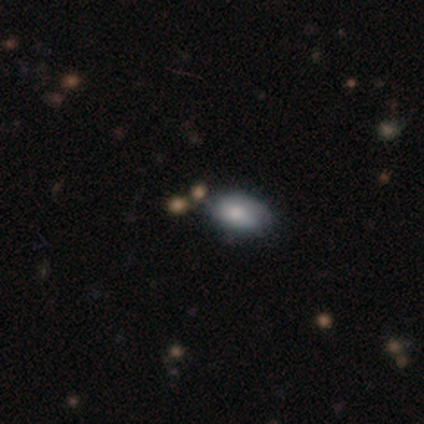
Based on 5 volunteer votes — A smooth galaxy with no disk features (40%, tied with featured or disk) that is in between round and cigar-shaped (100%). Merging: none (75%).